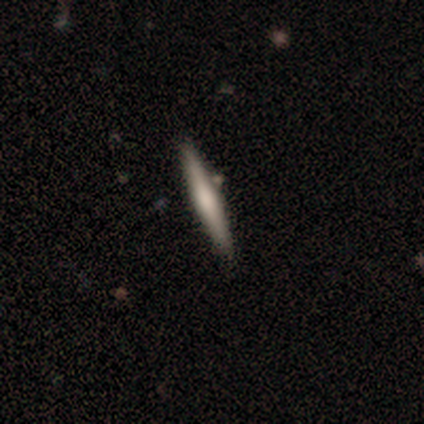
Volunteers were most divided on "smooth or featured": smooth: 75%, featured or disk: 25%, star or artifact: 0%. More confident: how rounded — cigar-shaped (100%); merging — none (75%).